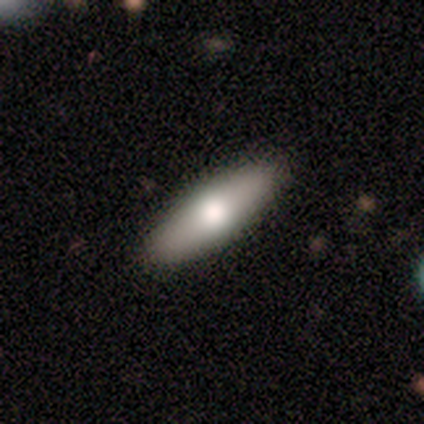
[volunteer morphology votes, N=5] Volunteers were most divided on "how rounded" (2-way tie): in between: 50%, cigar-shaped: 50%, round: 0%. More confident: merging — none (100%); smooth or featured — smooth (80%).